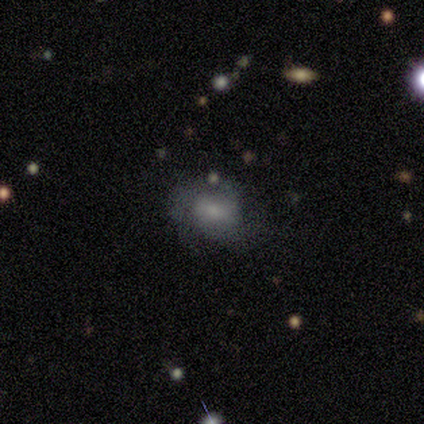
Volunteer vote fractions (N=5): Q: Smooth or featured?
A: smooth (60%); runner-up: featured or disk (40%)
Q: How rounded?
A: in between (67%); runner-up: round (33%)
Q: Merging?
A: none (60%); runner-up: major disturbance (40%)